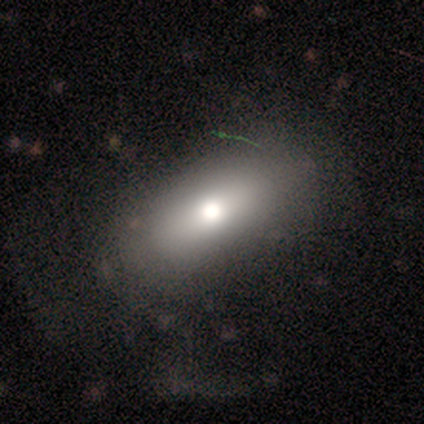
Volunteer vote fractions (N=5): This appears to be a smooth galaxy with no disk features (60%) that is in between round and cigar-shaped (67%). Merging: none (80%).